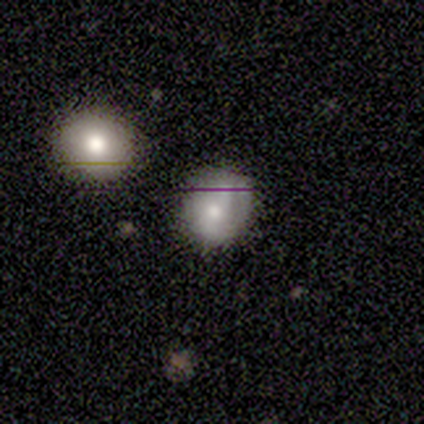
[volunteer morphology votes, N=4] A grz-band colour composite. It shows a smooth galaxy with no disk features (100%) that is round (50%, tied with in between). Merging: minor disturbance (75%).